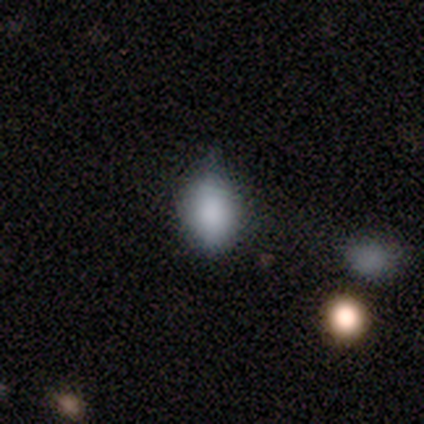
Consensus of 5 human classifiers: This is clearly a smooth galaxy (80%). How rounded: likely in between (75%). Merging: marginally none (40%, tied with minor disturbance).